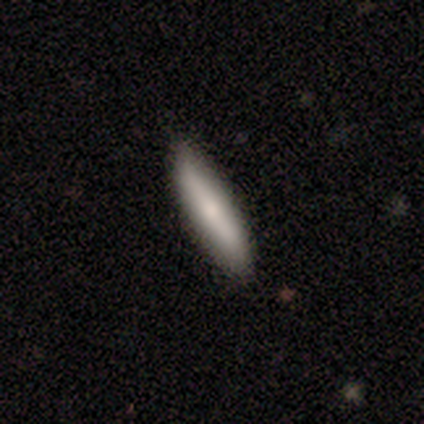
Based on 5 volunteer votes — A smooth galaxy with no disk features (100%) that is cigar-shaped (80%). Merging: none (100%).